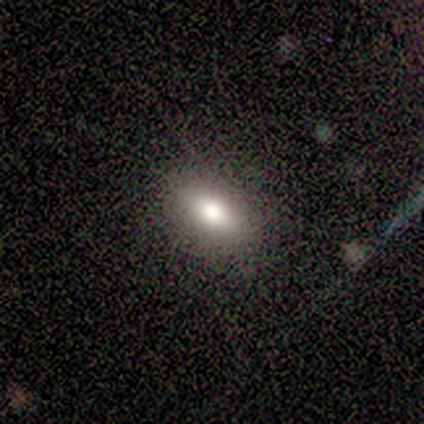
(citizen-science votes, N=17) Smooth or featured? 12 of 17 (71%) said smooth. How rounded? 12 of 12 (100%) said in between. Merging? 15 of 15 (100%) said none.